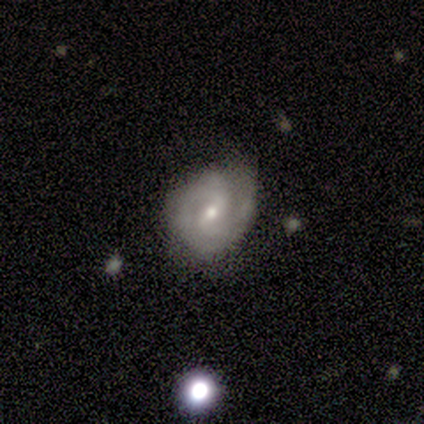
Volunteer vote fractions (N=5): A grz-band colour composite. It shows a featured or disk galaxy (80%) with a weak bar (67%), 2 (67%) tight (67%) spiral arms (100%) and a moderate central bulge (67%). Merging: none (60%).